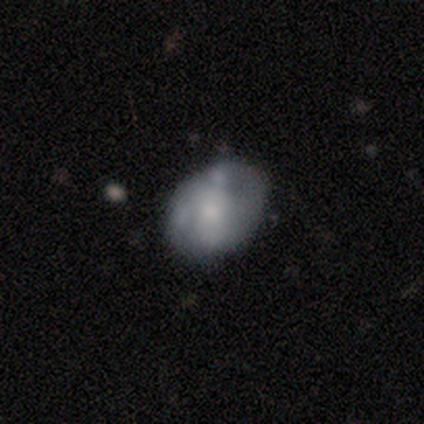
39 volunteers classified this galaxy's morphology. This appears to be a featured or disk galaxy (51%) with no bar (80%), no spiral arms (85%) and a small central bulge (45%). Merging: none (46%, tied with minor disturbance).